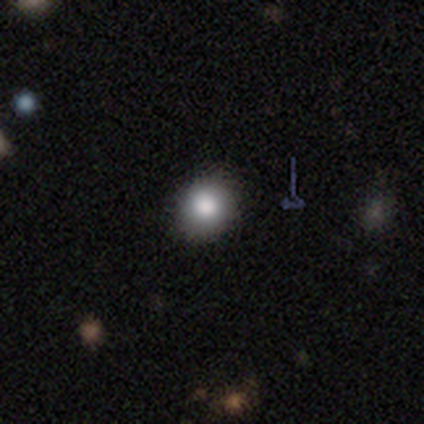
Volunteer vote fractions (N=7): Q: Smooth or featured?
A: smooth (86%); runner-up: featured or disk (14%)
Q: How rounded?
A: round (67%); runner-up: in between (33%)
Q: Merging?
A: none (100%)